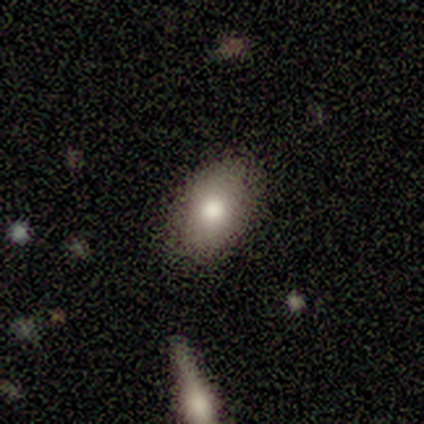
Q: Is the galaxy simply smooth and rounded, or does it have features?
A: smooth — 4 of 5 (80%).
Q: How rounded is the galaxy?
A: round — 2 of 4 (50%, tied with in between).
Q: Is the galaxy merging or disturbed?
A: none — 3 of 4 (75%).